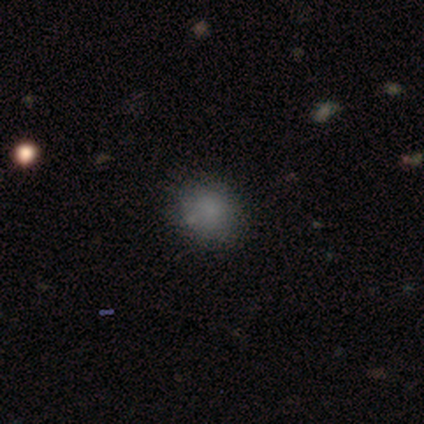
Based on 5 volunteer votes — This appears to be a smooth galaxy with no disk features (100%) that is round (80%). Merging: none (80%).